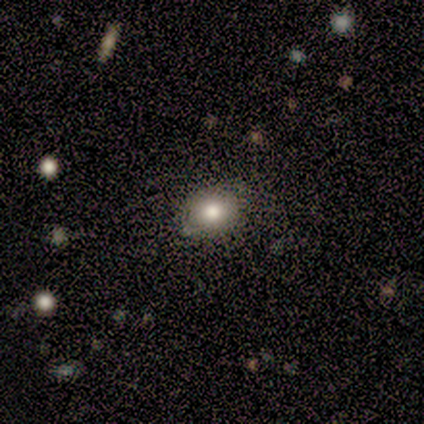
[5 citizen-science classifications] This appears to be a smooth galaxy with no disk features (60%) that is round (100%). Merging: none (100%).